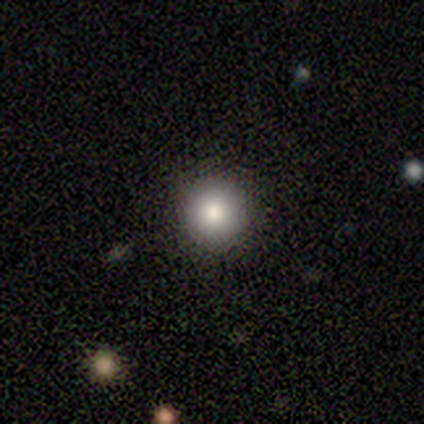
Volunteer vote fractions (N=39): This appears to be a smooth galaxy with no disk features (85%) that is round (97%). Merging: none (92%).